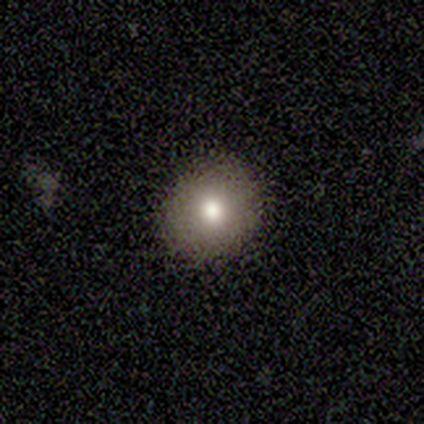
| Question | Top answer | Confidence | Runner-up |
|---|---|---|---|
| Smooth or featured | smooth | 75% | featured or disk (25%) |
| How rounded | round | 100% | — |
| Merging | none | 100% | — |